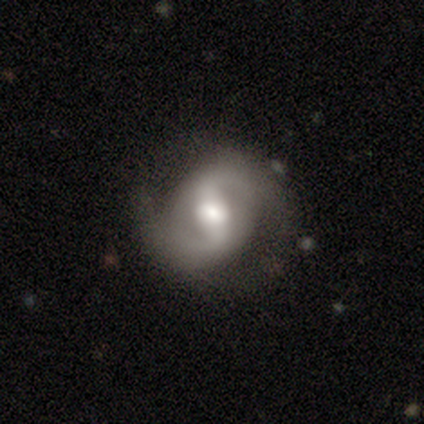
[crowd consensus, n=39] Volunteers were most divided on "bulge size": moderate: 45%, large: 39%, small: 15%, dominant: 0%, none: 0%. Remaining: edge-on disk — no (100%); spiral arms — yes (94%); spiral arm count — 2 (94%); smooth or featured — featured or disk (85%); merging — none (76%); bar — weak (48%); spiral winding — loose (39%).